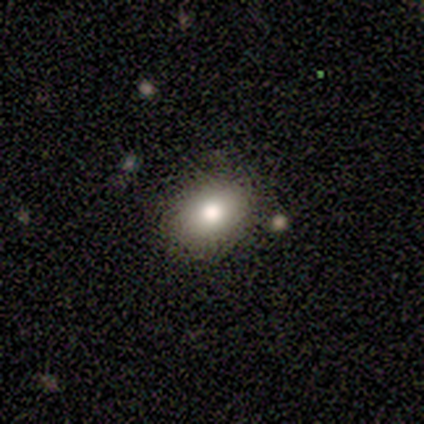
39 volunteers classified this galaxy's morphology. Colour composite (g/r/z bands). It shows a smooth galaxy with no disk features (77%) that is in between round and cigar-shaped (67%). Merging: none (81%).